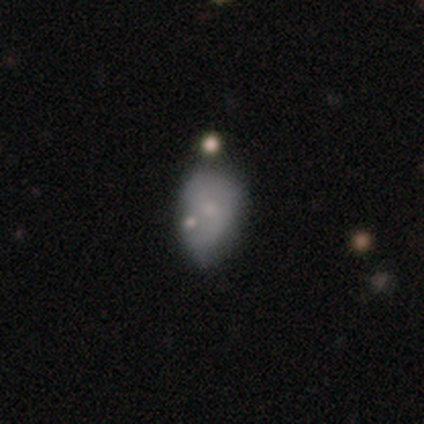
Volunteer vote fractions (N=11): Q: Smooth or featured?
A: featured or disk (55%); runner-up: smooth (36%)
Q: Edge-on disk?
A: no (83%); runner-up: yes (17%)
Q: Bar?
A: no (80%); runner-up: weak (20%)
Q: Spiral arms?
A: no (80%); runner-up: yes (20%)
Q: Bulge size?
A: small (60%); runner-up: moderate (40%)
Q: Merging?
A: none (60%); runner-up: minor disturbance (40%)